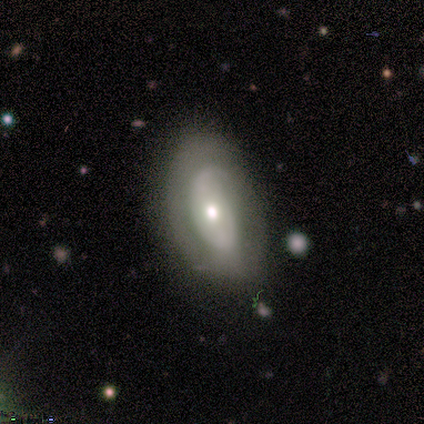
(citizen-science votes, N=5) Smooth or featured? 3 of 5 (60%) said featured or disk. Edge-on disk? 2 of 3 (67%) said no. Bar? 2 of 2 (100%) said no. Spiral arms? 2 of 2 (100%) said no. Bulge size? 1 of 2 (50%, tied with small) said moderate. Merging? 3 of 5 (60%) said none.